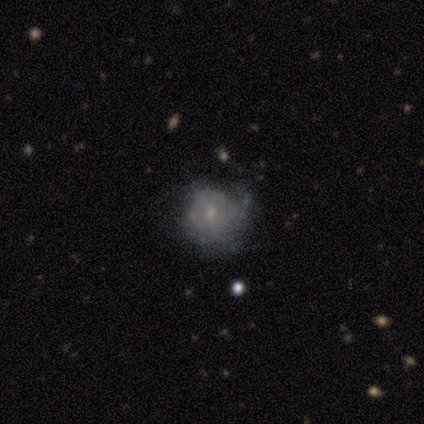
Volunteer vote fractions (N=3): Smooth or featured? featured or disk (67%)
Edge-on disk? no (100%)
Bar? no (100%)
Spiral arms? yes (50%, tied with no)
Spiral winding? tight (100%)
Spiral arm count? 2 (100%)
Bulge size? small (50%, tied with none)
Merging? none (67%)